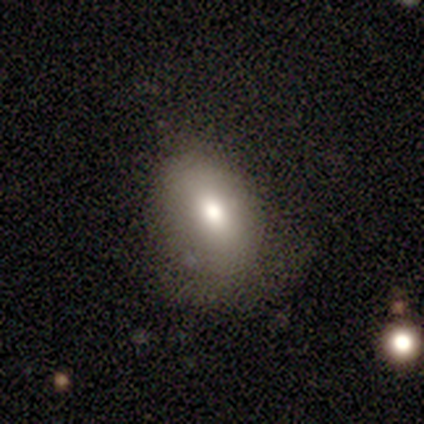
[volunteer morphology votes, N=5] Overall: smooth (80%). How rounded: in between (75%). Merging: none (60%; minor disturbance 20%).